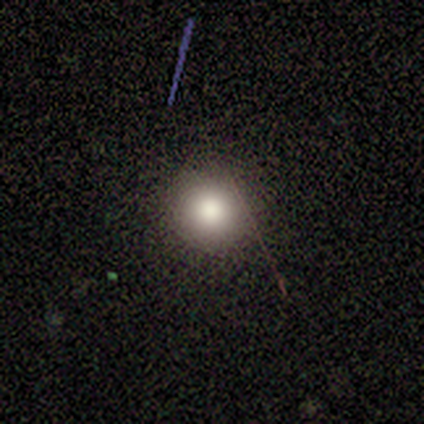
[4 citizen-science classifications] Smooth or featured? 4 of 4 (100%) said smooth. How rounded? 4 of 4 (100%) said round. Merging? 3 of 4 (75%) said none.